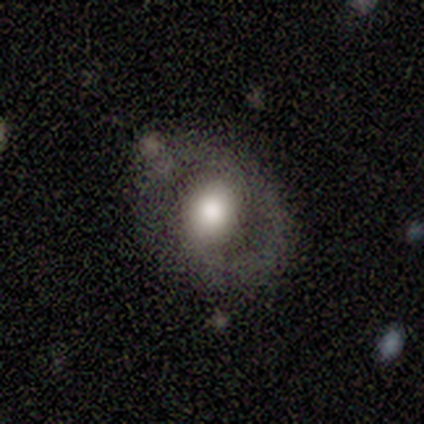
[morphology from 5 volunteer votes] Q: Smooth or featured?
A: featured or disk (80%); runner-up: smooth (20%)
Q: Edge-on disk?
A: no (100%)
Q: Bar?
A: no (50%); runner-up: strong (25%)
Q: Spiral arms?
A: yes (50%); tied with: no (50%)
Q: Spiral winding?
A: tight (100%)
Q: Spiral arm count?
A: 2 (100%)
Q: Bulge size?
A: large (50%); runner-up: moderate (25%)
Q: Merging?
A: minor disturbance (60%); runner-up: none (40%)